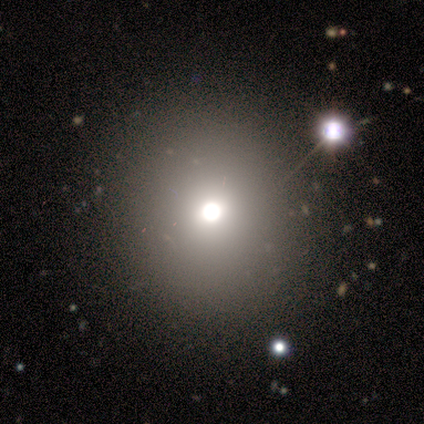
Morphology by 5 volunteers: Q: Smooth or featured?
A: smooth (80%); runner-up: star or artifact (20%)
Q: How rounded?
A: round (100%)
Q: Merging?
A: none (100%)